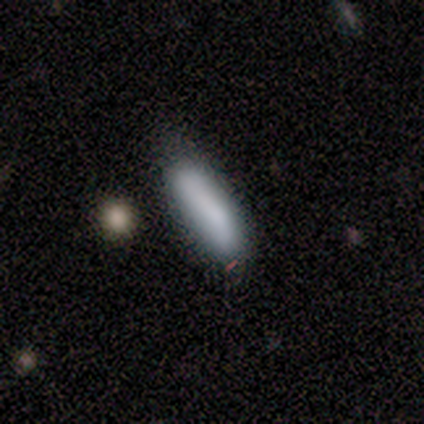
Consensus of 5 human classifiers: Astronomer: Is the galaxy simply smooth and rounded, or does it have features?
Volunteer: smooth — 100%.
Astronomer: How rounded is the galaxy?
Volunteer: cigar-shaped — 100%.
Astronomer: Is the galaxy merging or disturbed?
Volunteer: none — 80%.